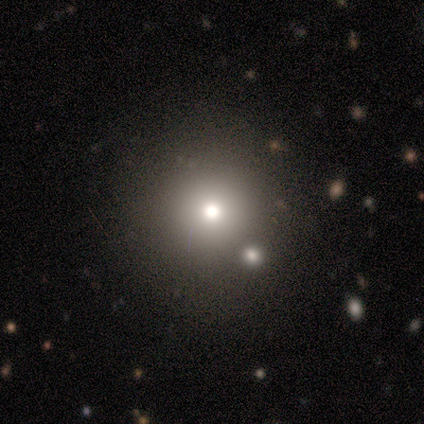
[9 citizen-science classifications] smooth 33% (tied), featured or disk 33% (tied), star or artifact 33% (tied). Down the decision tree: how rounded — round (100%); merging — none (83%).